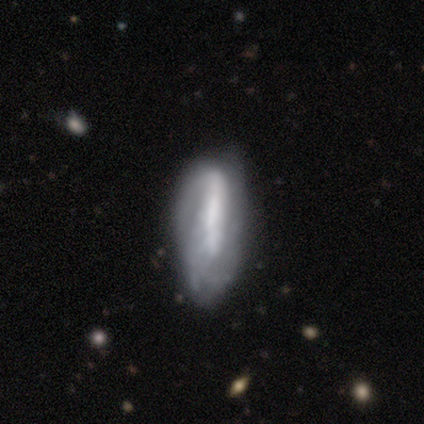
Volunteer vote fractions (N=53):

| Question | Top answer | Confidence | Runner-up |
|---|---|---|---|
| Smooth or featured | featured or disk | 57% | smooth (36%) |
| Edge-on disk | no | 77% | yes (23%) |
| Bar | strong | 57% | no (39%) |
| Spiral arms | yes | 57% | no (43%) |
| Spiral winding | loose | 46% | medium (31%) |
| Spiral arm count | can't tell | 46% | 2 (31%) |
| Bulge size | none | 43% | moderate (35%) |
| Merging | minor disturbance | 35% | none (33%) |